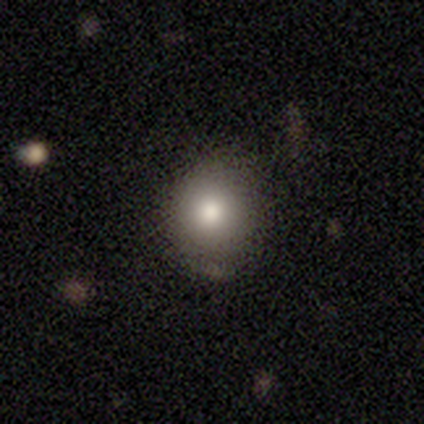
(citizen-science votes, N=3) smooth-or-featured: featured or disk: 67% | star or artifact: 33% | smooth: 0%
  disk-edge-on: no: 100% | yes: 0%
    bar: no: 100% | strong: 0% | weak: 0%
    has-spiral-arms: no: 100% | yes: 0%
    bulge-size: moderate: 50% (tied) | small: 50% (tied) | dominant: 0% | large: 0% | none: 0%
  merging: none: 50% (tied) | minor disturbance: 50% (tied) | major disturbance: 0% | merger: 0%